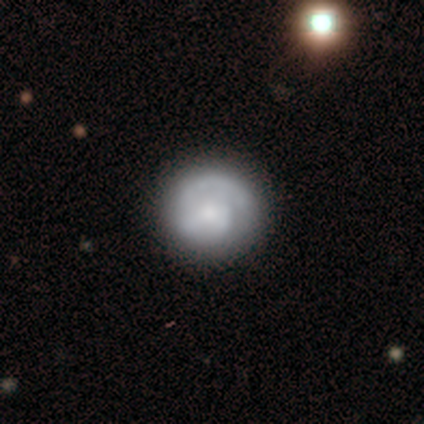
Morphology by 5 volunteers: Q: Smooth or featured?
A: featured or disk (80%); runner-up: smooth (20%)
Q: Edge-on disk?
A: no (100%)
Q: Bar?
A: no (100%)
Q: Spiral arms?
A: yes (100%)
Q: Spiral winding?
A: tight (75%); runner-up: loose (25%)
Q: Spiral arm count?
A: 2 (50%); runner-up: 1 (25%)
Q: Bulge size?
A: moderate (50%); tied with: small (50%)
Q: Merging?
A: none (100%)